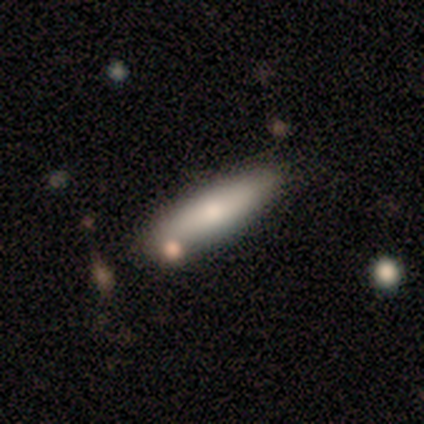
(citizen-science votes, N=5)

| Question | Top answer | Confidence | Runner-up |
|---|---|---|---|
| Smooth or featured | smooth | 80% | featured or disk (20%) |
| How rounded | cigar-shaped | 100% | — |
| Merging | none | 60% | minor disturbance (20%) |